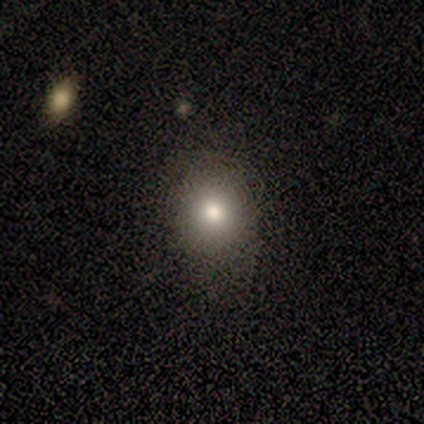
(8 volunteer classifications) A smooth galaxy with no disk features (75%) that is round (50%, tied with in between).

Vote fractions:
- Smooth or featured? smooth: 75% / featured or disk: 25% / star or artifact: 0%
- How rounded? round: 50% (tied) / in between: 50% (tied) / cigar-shaped: 0%
- Merging? none: 62% / minor disturbance: 38% / major disturbance: 0% / merger: 0%